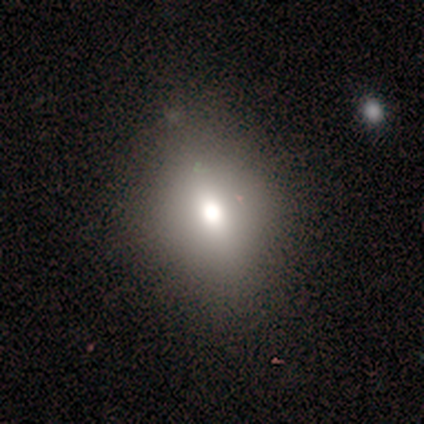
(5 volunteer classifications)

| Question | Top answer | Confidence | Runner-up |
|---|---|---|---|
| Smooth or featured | smooth | 100% | — |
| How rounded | in between | 80% | round (20%) |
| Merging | none | 80% | minor disturbance (20%) |